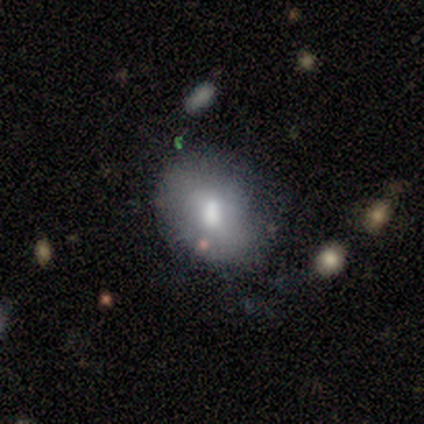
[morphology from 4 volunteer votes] type=smooth (75%); roundness=in between (100%); merging=minor disturbance (50%).